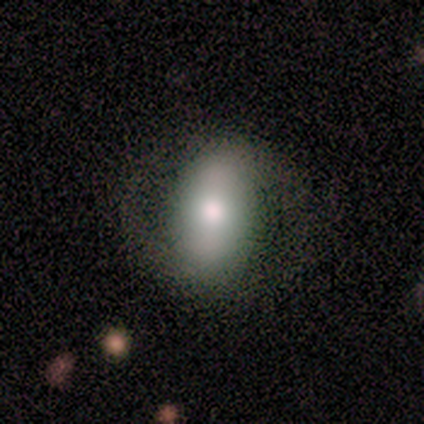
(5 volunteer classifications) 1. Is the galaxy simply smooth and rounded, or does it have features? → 60% smooth, 40% featured or disk, 0% star or artifact.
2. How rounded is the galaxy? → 100% in between, 0% round, 0% cigar-shaped.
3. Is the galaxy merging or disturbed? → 60% none, 20% minor disturbance, 20% major disturbance, 0% merger.